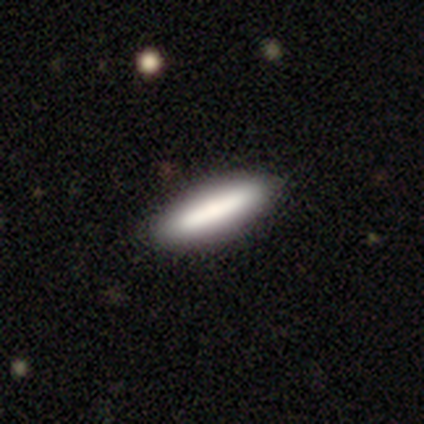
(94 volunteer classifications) This is likely a smooth galaxy (76%). How rounded: likely cigar-shaped (75%). Merging: clearly none (86%).